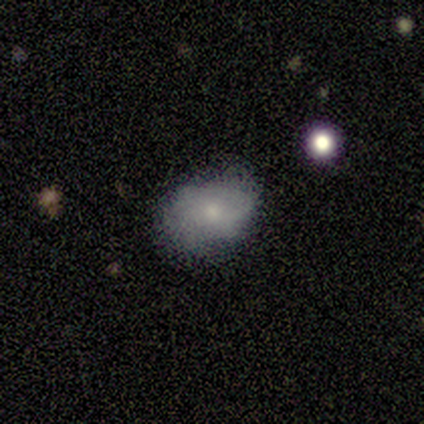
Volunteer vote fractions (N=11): Volunteers were most divided on "smooth or featured": smooth: 64%, featured or disk: 36%, star or artifact: 0%. More confident: how rounded — in between (86%); merging — none (64%).